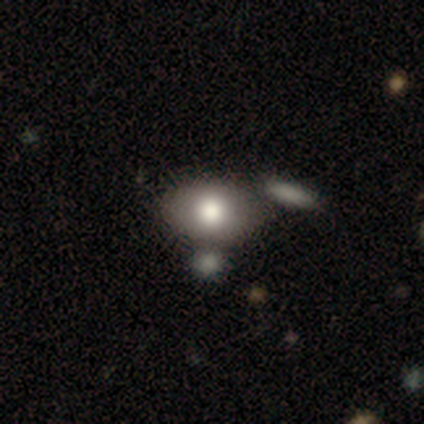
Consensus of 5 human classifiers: This is clearly a smooth galaxy (100%). How rounded: clearly in between (80%). Merging: likely none (60%).